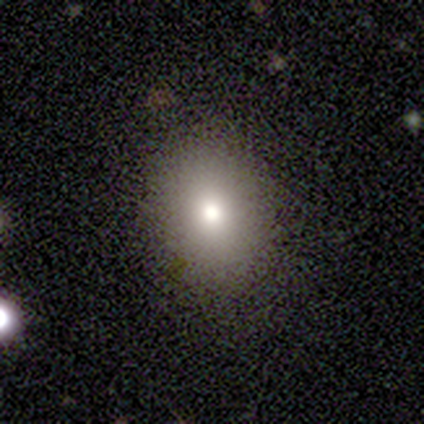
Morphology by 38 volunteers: type=smooth (76%); roundness=round (48%, tied with in between); merging=none (91%).